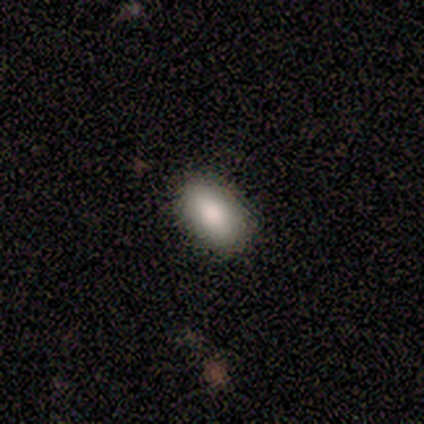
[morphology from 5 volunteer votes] smooth_or_featured: smooth (p=1.00)
how_rounded: in between (p=1.00)
merging: none (p=1.00)